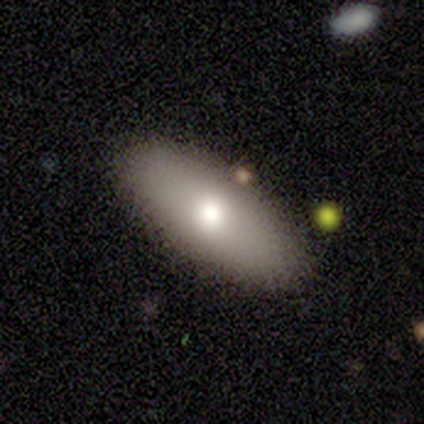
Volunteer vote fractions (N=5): Volunteers were most divided on "merging": none: 60%, minor disturbance: 20%, merger: 20%, major disturbance: 0%. More confident: smooth or featured — smooth (80%); how rounded — in between (75%).